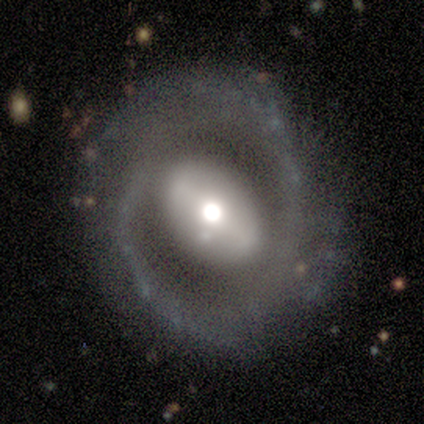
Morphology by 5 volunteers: Smooth or featured: smooth — 40% (tied with featured or disk — 40%)
How rounded: in between — 100%
Merging: none — 75% (minor disturbance — 25%)